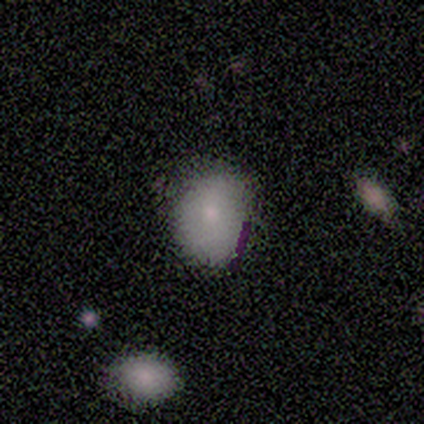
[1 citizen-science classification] This is clearly a smooth galaxy (100%). How rounded: clearly in between (100%). Merging: clearly minor disturbance (100%).